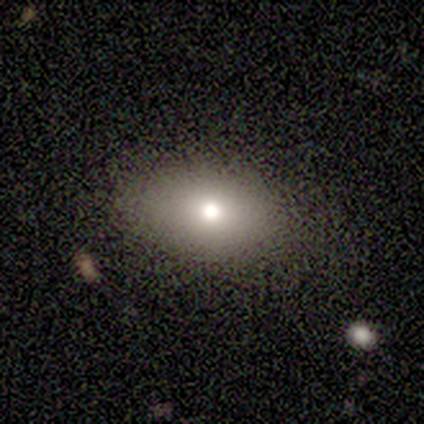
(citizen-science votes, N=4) Overall: smooth (50%; featured or disk 25%). How rounded: in between (100%). Merging: none (100%).